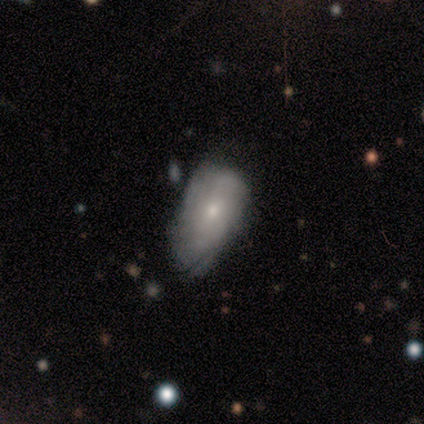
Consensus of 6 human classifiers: smooth 50% (tied), featured or disk 50% (tied), star or artifact 0%. Down the decision tree: how rounded — in between (100%); merging — minor disturbance (67%).